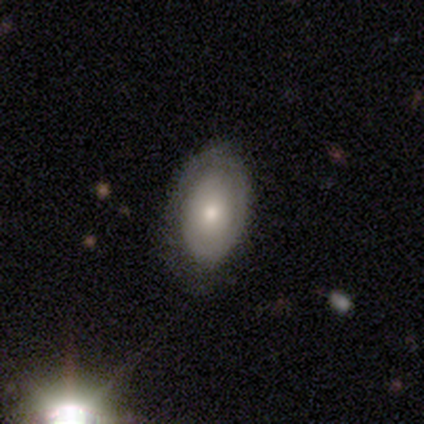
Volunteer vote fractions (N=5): A featured or disk galaxy (60%) with no bar (100%), no spiral arms (100%) and a moderate central bulge (67%). Merging: none (60%).